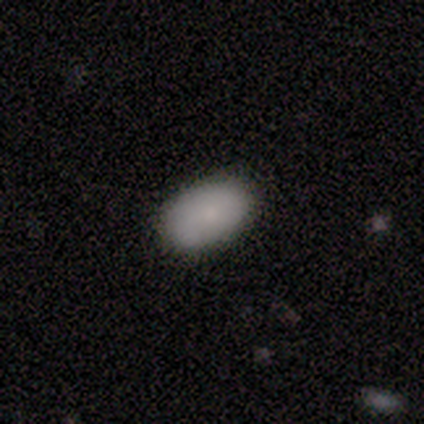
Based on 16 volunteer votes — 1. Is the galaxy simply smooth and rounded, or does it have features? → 88% smooth, 6% featured or disk, 6% star or artifact.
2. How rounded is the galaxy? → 100% in between, 0% round, 0% cigar-shaped.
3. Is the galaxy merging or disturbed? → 87% none, 7% minor disturbance, 7% major disturbance, 0% merger.